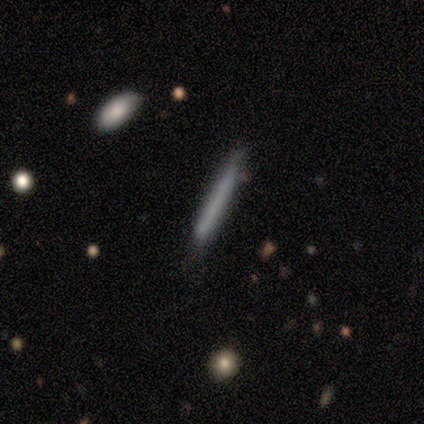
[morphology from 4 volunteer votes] This appears to be a smooth galaxy with no disk features (100%) that is cigar-shaped (100%). Merging: none (75%).